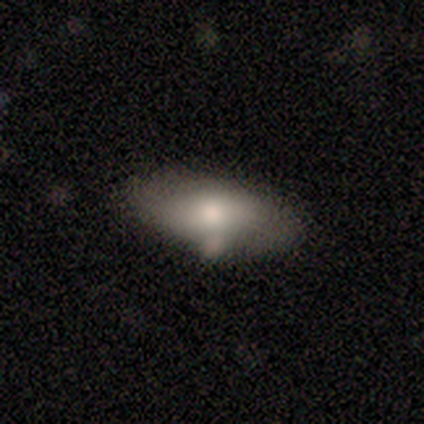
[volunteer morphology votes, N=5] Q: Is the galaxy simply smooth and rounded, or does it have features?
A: smooth — 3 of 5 (60%).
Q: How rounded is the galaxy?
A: in between — 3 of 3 (100%).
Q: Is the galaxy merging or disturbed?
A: none — 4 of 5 (80%).